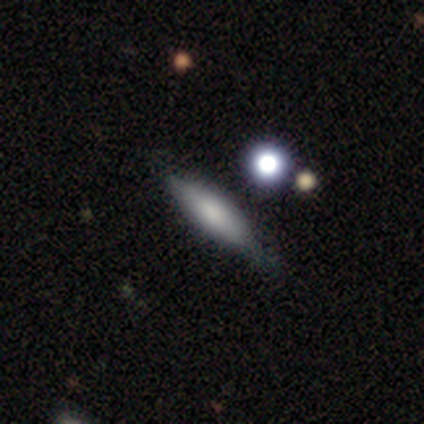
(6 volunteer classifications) Smooth or featured?
  - smooth: 50% *
  - featured or disk: 33%
  - star or artifact: 17%
How rounded?
  - cigar-shaped: 67% *
  - in between: 33%
  - round: 0%
Merging?
  - none: 80% *
  - minor disturbance: 20%
  - major disturbance: 0%
  - merger: 0%